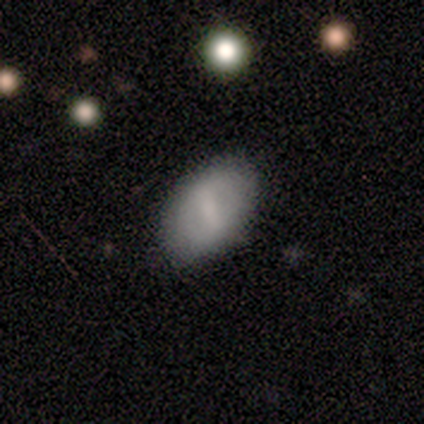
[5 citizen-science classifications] Smooth or featured? 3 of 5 (60%) said smooth. How rounded? 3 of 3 (100%) said in between. Merging? 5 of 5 (100%) said none.